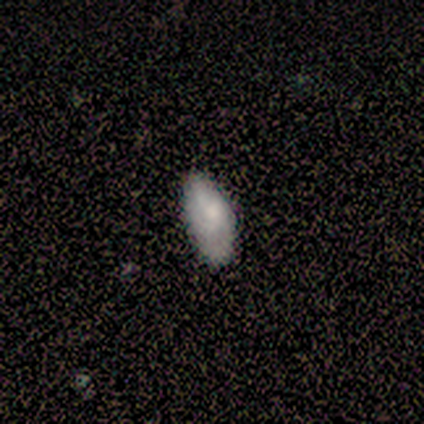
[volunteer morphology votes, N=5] type=smooth (100%); roundness=in between (100%); merging=none (60%).